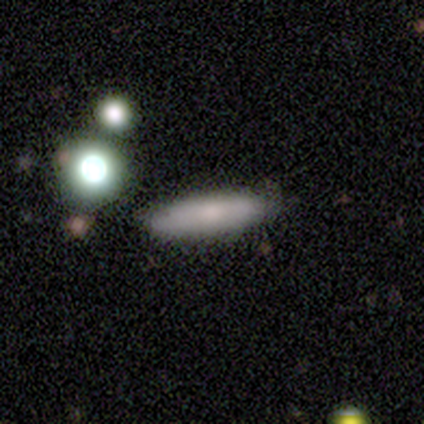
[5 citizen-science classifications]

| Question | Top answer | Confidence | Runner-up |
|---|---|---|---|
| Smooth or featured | smooth | 80% | star or artifact (20%) |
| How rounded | cigar-shaped | 75% | in between (25%) |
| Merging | none | 100% | — |